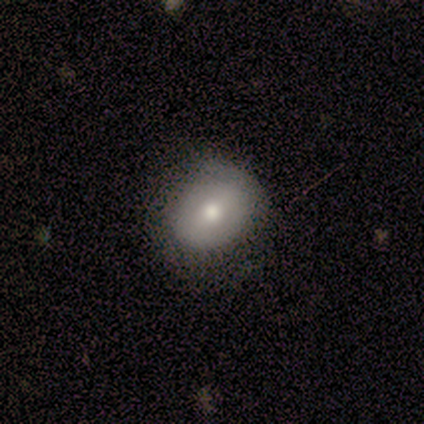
Morphology: type=smooth (100%); roundness=in between (60%); merging=none (100%).